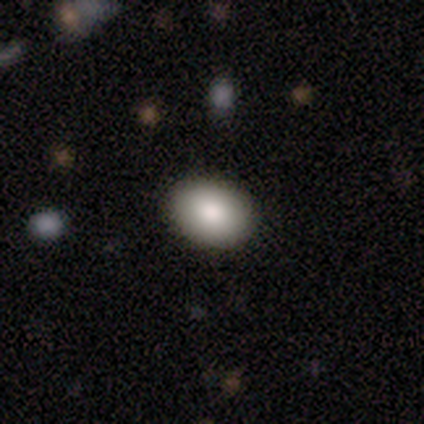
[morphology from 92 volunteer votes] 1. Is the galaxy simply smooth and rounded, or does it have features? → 79% smooth, 11% featured or disk, 10% star or artifact.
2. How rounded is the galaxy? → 74% in between, 26% round, 0% cigar-shaped.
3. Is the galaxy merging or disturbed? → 89% none, 10% minor disturbance, 1% merger, 0% major disturbance.